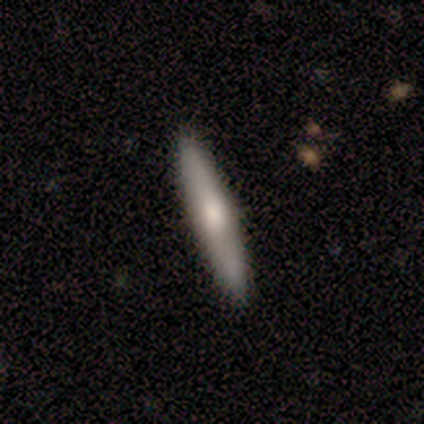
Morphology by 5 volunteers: featured or disk 80%, smooth 20%, star or artifact 0%. Down the decision tree: edge-on disk — yes (75%); edge-on bulge — rounded (100%); merging — none (80%).